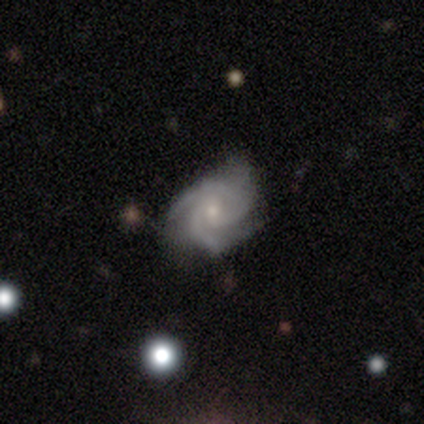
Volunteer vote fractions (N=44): This is clearly a featured or disk galaxy (89%). It is clearly not viewed edge-on (97%). Bar: likely no (61%). Spiral arm pattern: clearly yes (100%). Spiral arm count: possibly 3 (50%). Spiral winding: likely tight (68%). Central bulge: likely small (71%). Merging: likely none (64%).